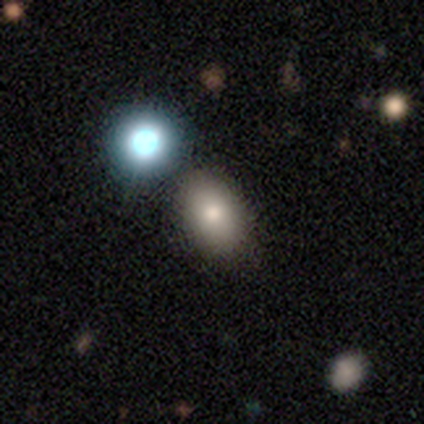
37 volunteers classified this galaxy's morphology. smooth_or_featured: smooth (p=0.73) [alt: featured or disk p=0.19]
how_rounded: in between (p=0.89) [alt: round p=0.11]
merging: none (p=0.44) [alt: merger p=0.21]